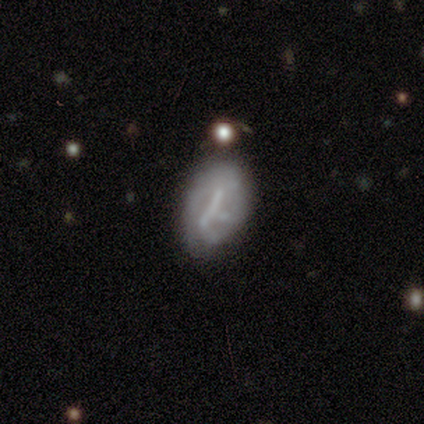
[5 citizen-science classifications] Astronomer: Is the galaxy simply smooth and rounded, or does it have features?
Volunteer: featured or disk — 80%.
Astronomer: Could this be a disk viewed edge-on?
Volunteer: no — 100%.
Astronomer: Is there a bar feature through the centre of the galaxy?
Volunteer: strong — 50%, tied with no at 50%.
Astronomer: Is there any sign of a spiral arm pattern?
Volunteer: no — 100%.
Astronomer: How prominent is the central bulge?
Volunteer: none — 75%.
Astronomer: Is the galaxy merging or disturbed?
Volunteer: none — 60%.